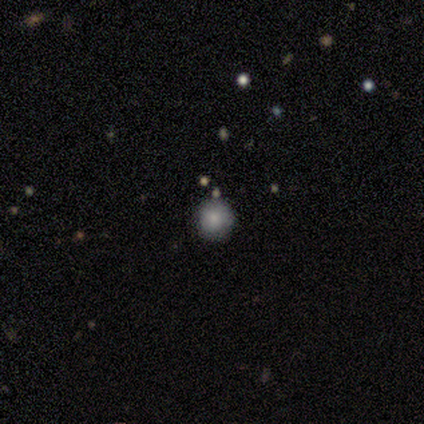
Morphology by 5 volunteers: This is likely a smooth galaxy (60%). How rounded: clearly round (100%). Merging: likely none (75%).